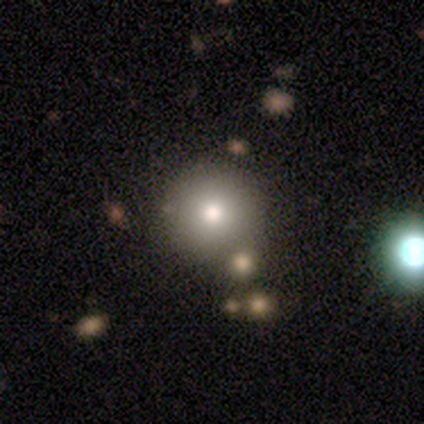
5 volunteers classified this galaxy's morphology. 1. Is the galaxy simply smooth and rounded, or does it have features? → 100% smooth, 0% featured or disk, 0% star or artifact.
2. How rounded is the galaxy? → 100% round, 0% in between, 0% cigar-shaped.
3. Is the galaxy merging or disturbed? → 80% none, 20% minor disturbance, 0% major disturbance, 0% merger.